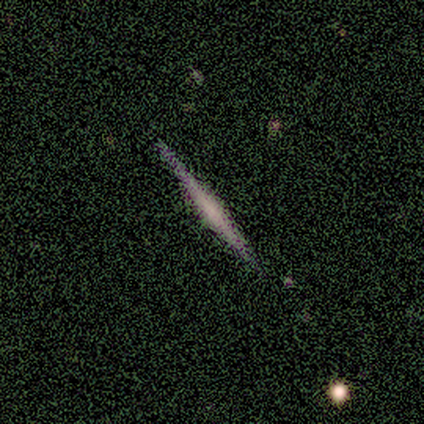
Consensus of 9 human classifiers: A featured or disk galaxy (78%) viewed edge-on (86%) with a rounded central bulge (50%). Merging: none (88%).